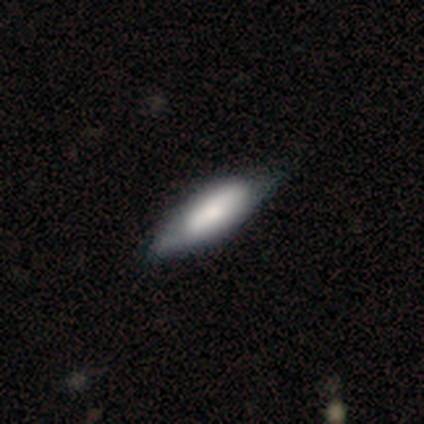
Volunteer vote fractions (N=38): smooth 68%, featured or disk 24%, star or artifact 8%. Down the decision tree: how rounded — in between (69%); merging — none (34%).